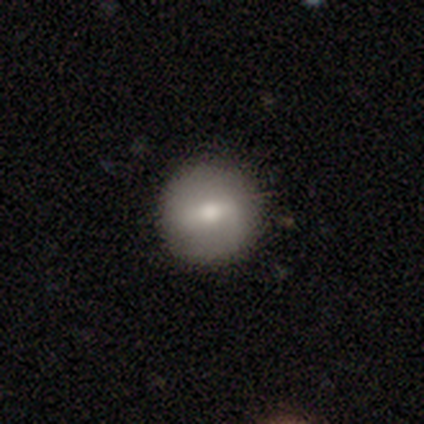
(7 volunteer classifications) Q: Smooth or featured?
A: smooth (57%); runner-up: featured or disk (43%)
Q: How rounded?
A: round (100%)
Q: Merging?
A: none (71%); runner-up: minor disturbance (29%)